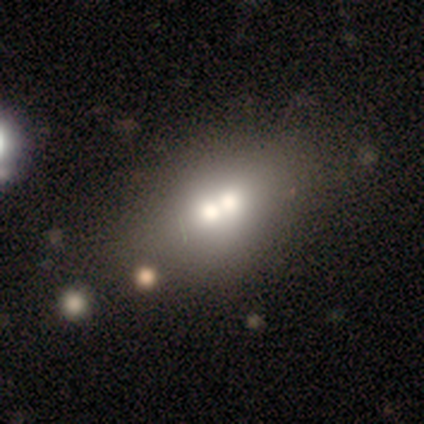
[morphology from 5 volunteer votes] Volunteers were most divided on "how rounded": in between: 75%, round: 25%, cigar-shaped: 0%. More confident: smooth or featured — smooth (80%); merging — merger (80%).